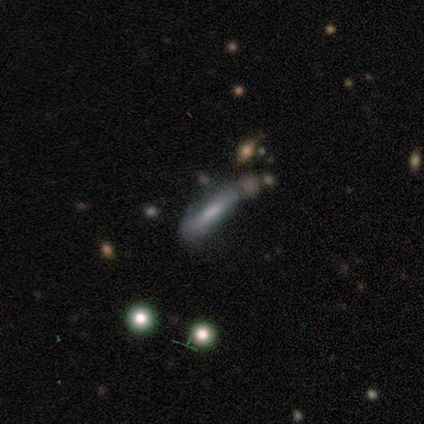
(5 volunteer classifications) Morphology: type=featured or disk (60%); edge-on=no (67%); bar=weak (50%, tied with no); spiral arms=yes (50%, tied with no); winding=loose (100%); arm count=can't tell (100%); bulge=moderate (50%, tied with none); merging=minor disturbance (60%).